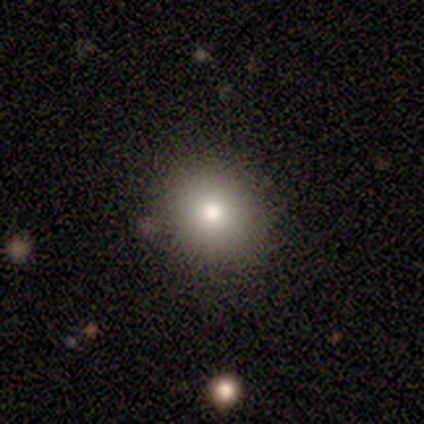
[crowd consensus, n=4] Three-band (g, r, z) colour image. It shows a smooth galaxy with no disk features (100%) that is round (50%, tied with in between). Merging: none (75%).